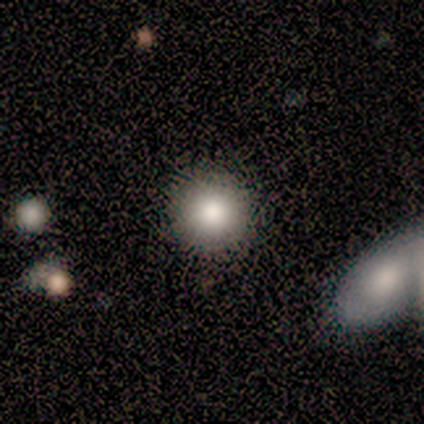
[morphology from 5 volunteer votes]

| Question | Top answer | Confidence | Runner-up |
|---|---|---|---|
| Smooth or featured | smooth | 100% | — |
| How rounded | round | 100% | — |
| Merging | none | 80% | minor disturbance (20%) |